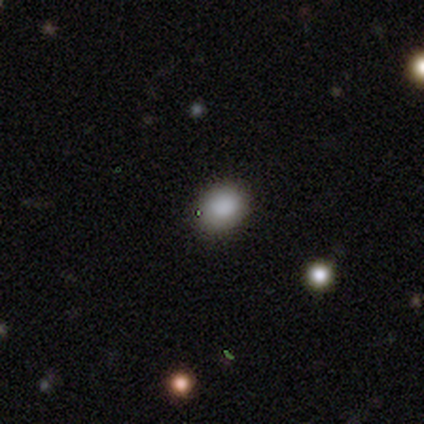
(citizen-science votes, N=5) Smooth or featured: smooth — 80% (featured or disk — 20%)
How rounded: in between — 75% (round — 25%)
Merging: none — 80% (minor disturbance — 20%)